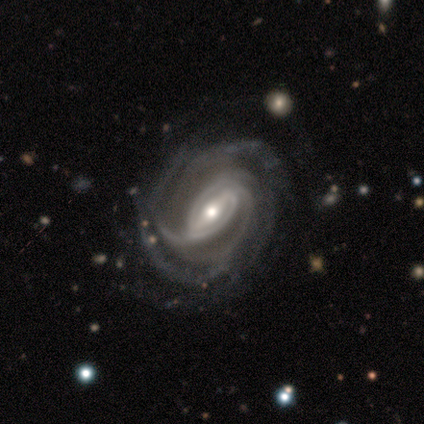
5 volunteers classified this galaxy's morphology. smooth-or-featured: featured or disk: 100% | smooth: 0% | star or artifact: 0%
  disk-edge-on: no: 80% | yes: 20%
    bar: strong: 75% | weak: 25% | no: 0%
    has-spiral-arms: yes: 100% | no: 0%
      spiral-winding: tight: 75% | medium: 25% | loose: 0%
      spiral-arm-count: more than 4: 50% | 3: 25% | 4: 25% | 1: 0% | 2: 0% | can't tell: 0%
    bulge-size: small: 75% | moderate: 25% | dominant: 0% | large: 0% | none: 0%
  merging: none: 60% | minor disturbance: 40% | major disturbance: 0% | merger: 0%